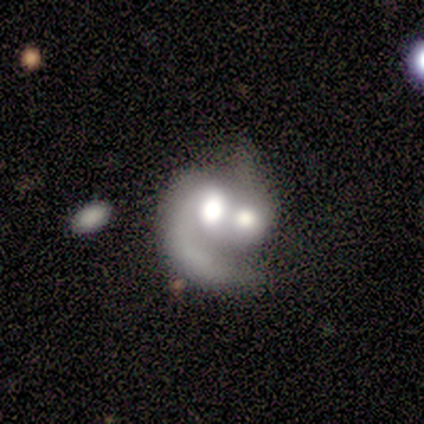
smooth-or-featured: featured or disk: 80% | smooth: 15% | star or artifact: 4%
  disk-edge-on: no: 99% | yes: 1%
    bar: no: 86% | weak: 9% | strong: 5%
    has-spiral-arms: yes: 84% | no: 16%
      spiral-winding: medium: 43% | loose: 31% | tight: 26%
      spiral-arm-count: 1: 66% | 2: 25% | can't tell: 9% | 3: 0% | 4: 0% | more than 4: 0%
    bulge-size: large: 53% | moderate: 30% | dominant: 12% | none: 4% | small: 1%
  merging: merger: 86% | major disturbance: 11% | minor disturbance: 2% | none: 1%